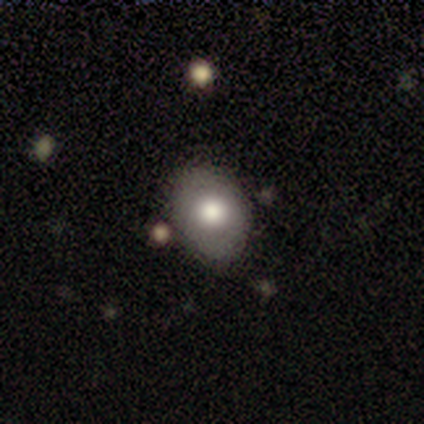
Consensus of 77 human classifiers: Smooth or featured?
  - smooth: 65% *
  - featured or disk: 29%
  - star or artifact: 6%
How rounded?
  - in between: 64% *
  - round: 36%
  - cigar-shaped: 0%
Merging?
  - none: 53% *
  - minor disturbance: 6%
  - merger: 4%
  - major disturbance: 3%